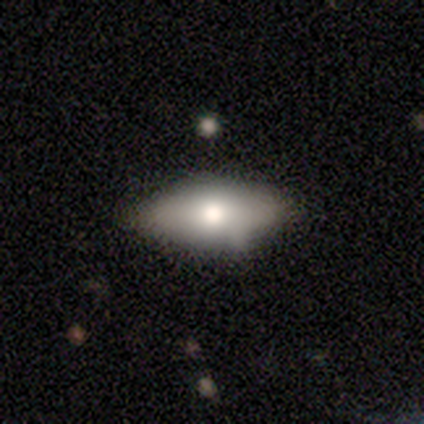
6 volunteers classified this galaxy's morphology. smooth-or-featured: smooth: 67% | featured or disk: 33% | star or artifact: 0%
  how-rounded: in between: 100% | round: 0% | cigar-shaped: 0%
  merging: none: 83% | minor disturbance: 17% | major disturbance: 0% | merger: 0%